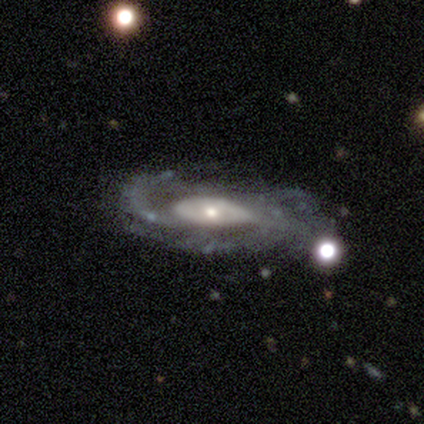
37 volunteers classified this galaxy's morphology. This appears to be a featured or disk galaxy (89%) with no bar (71%), medium (56%) spiral arms (96%) and a small central bulge (46%). Merging: none (64%).